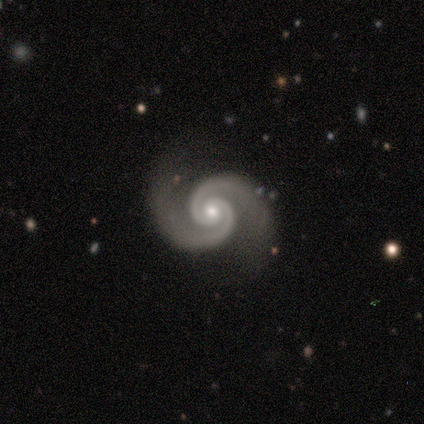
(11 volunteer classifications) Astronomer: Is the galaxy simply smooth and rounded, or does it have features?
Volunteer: featured or disk — 100%.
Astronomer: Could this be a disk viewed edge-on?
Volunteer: no — 100%.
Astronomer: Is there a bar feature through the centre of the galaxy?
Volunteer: no — 64%.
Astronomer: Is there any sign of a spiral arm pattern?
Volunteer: yes — 100%.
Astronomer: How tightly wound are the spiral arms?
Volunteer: tight — 55% (runner-up: medium, 36%).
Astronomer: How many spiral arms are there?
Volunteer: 2 — 100%.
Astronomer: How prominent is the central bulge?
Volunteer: moderate — 73%.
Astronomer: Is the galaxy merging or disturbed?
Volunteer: none — 91%.